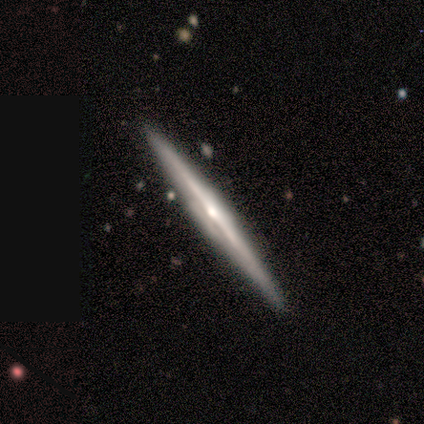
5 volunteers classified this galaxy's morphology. Smooth or featured? featured or disk (60%)
Edge-on disk? yes (100%)
Edge-on bulge? rounded (100%)
Merging? none (100%)